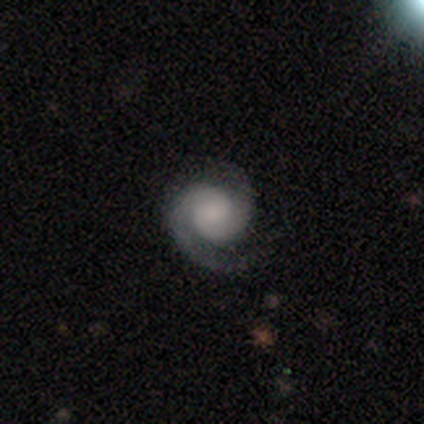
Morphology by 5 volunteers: Smooth or featured? featured or disk (60%)
Edge-on disk? no (100%)
Bar? weak (67%)
Spiral arms? yes (100%)
Spiral winding? tight (67%)
Spiral arm count? 2 (100%)
Bulge size? moderate (100%)
Merging? none (50%)